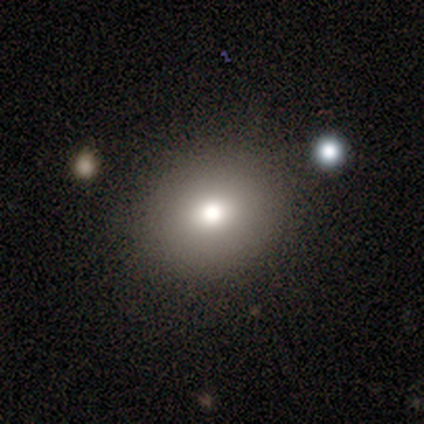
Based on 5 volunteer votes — Volunteers were most divided on "smooth or featured": smooth: 60%, star or artifact: 40%, featured or disk: 0%. More confident: merging — none (100%); how rounded — in between (67%).